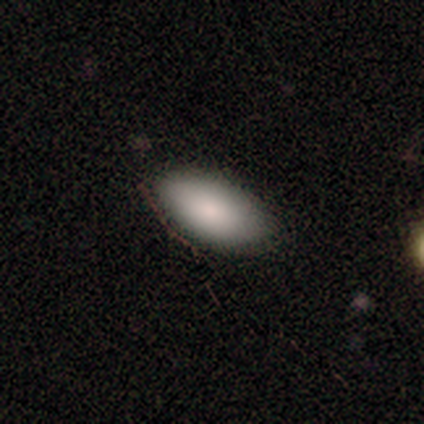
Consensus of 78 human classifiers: Smooth or featured?
  - smooth: 90% *
  - star or artifact: 6%
  - featured or disk: 4%
How rounded?
  - in between: 94% *
  - cigar-shaped: 6%
  - round: 0%
Merging?
  - none: 79% *
  - minor disturbance: 19%
  - major disturbance: 1%
  - merger: 0%